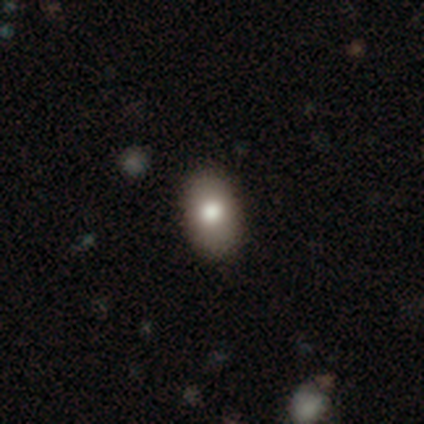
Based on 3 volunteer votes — A smooth galaxy with no disk features (67%) that is in between round and cigar-shaped (100%).

Vote fractions:
- Smooth or featured? smooth: 67% / star or artifact: 33% / featured or disk: 0%
- How rounded? in between: 100% / round: 0% / cigar-shaped: 0%
- Merging? none: 50% (tied) / minor disturbance: 50% (tied) / major disturbance: 0% / merger: 0%